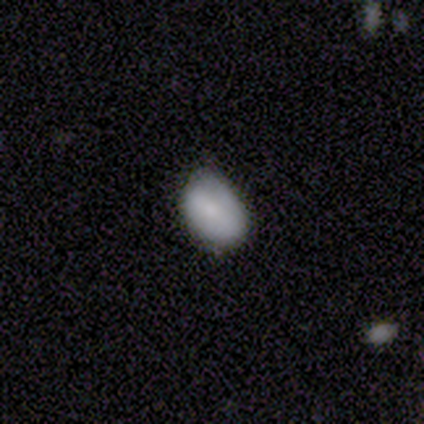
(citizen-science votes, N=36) Morphology: type=smooth (69%); roundness=in between (96%); merging=none (58%).